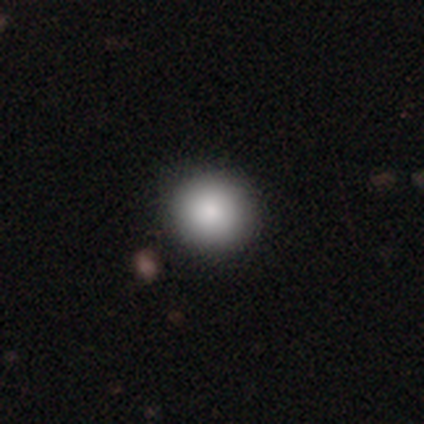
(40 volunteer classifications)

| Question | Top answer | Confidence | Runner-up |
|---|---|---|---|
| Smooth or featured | smooth | 88% | star or artifact (8%) |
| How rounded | round | 100% | — |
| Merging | none | 59% | merger (8%) |